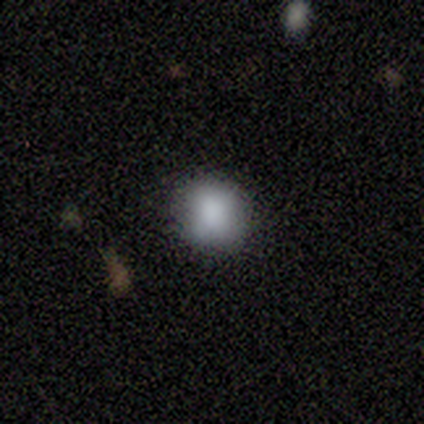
smooth 80%, star or artifact 20%, featured or disk 0%. Down the decision tree: how rounded — round (100%); merging — none (75%).